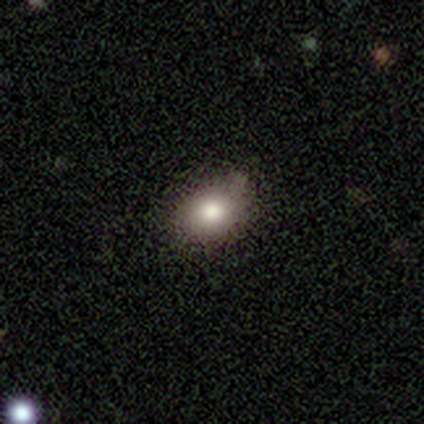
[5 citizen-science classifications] A smooth galaxy with no disk features (80%) that is round (100%). Merging: none (80%).